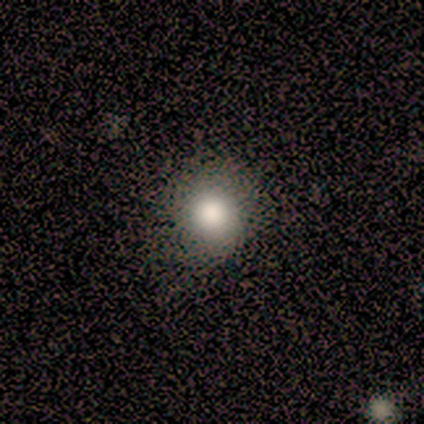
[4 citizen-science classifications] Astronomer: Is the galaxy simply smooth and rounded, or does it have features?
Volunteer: smooth — 100%.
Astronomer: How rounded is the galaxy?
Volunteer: round — 100%.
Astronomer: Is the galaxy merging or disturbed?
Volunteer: none — 100%.